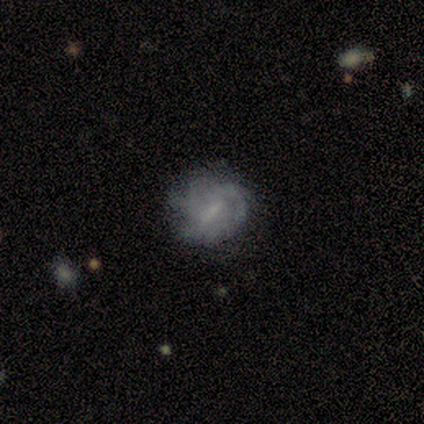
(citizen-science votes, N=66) smooth-or-featured: featured or disk: 71% | smooth: 21% | star or artifact: 8%
  disk-edge-on: no: 96% | yes: 4%
    bar: weak: 58% | strong: 29% | no: 13%
    has-spiral-arms: yes: 82% | no: 18%
      spiral-winding: tight: 54% | medium: 38% | loose: 8%
      spiral-arm-count: can't tell: 41% | 2: 22% | 3: 11% | more than 4: 11% | 1: 8% | 4: 8%
    bulge-size: small: 38% (tied) | none: 38% (tied) | moderate: 20% | large: 4% | dominant: 0%
  merging: none: 61% | minor disturbance: 26% | major disturbance: 11% | merger: 2%